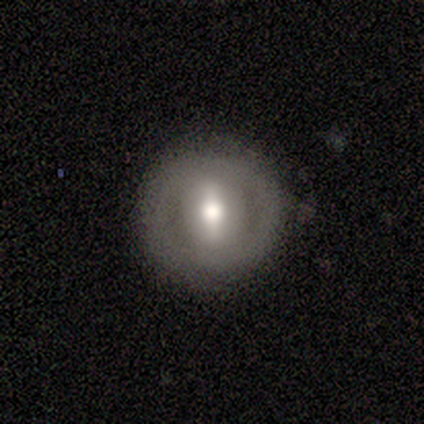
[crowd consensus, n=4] Smooth or featured? 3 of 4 (75%) said featured or disk. Edge-on disk? 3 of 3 (100%) said no. Bar? 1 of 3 (33%, tied with weak and no) said strong. Spiral arms? 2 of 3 (67%) said no. Bulge size? 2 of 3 (67%) said moderate. Merging? 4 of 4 (100%) said none.